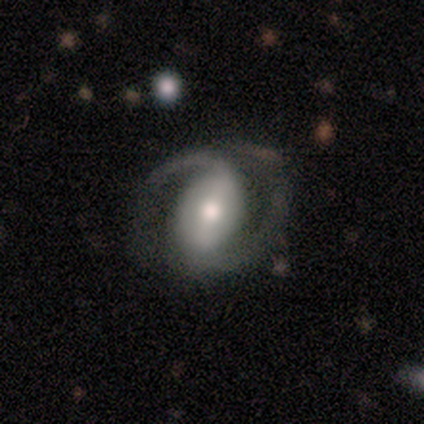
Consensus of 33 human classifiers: This appears to be a featured or disk galaxy (88%) with a strong bar (48%), 2 (96%) medium (61%) spiral arms (85%) and a moderate central bulge (63%). Merging: none (55%).